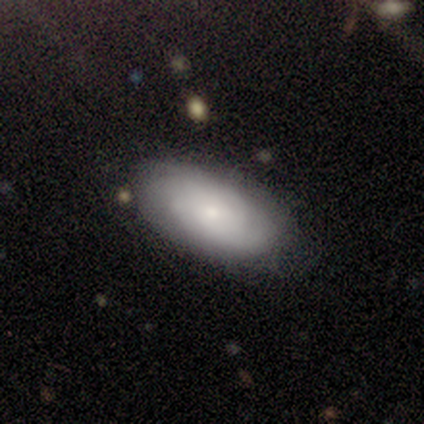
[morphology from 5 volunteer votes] Smooth or featured: smooth — 80% (featured or disk — 20%)
How rounded: in between — 100%
Merging: none — 80% (minor disturbance — 20%)